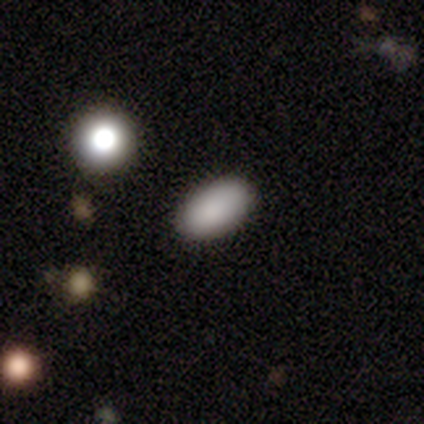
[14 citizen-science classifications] smooth-or-featured: smooth: 100% | featured or disk: 0% | star or artifact: 0%
  how-rounded: in between: 93% | round: 7% | cigar-shaped: 0%
  merging: none: 71% | minor disturbance: 21% | major disturbance: 7% | merger: 0%